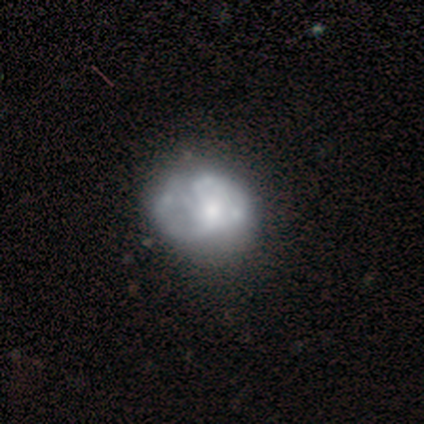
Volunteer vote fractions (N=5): This appears to be a featured or disk galaxy (60%) with no bar (100%), no spiral arms (67%) and a small central bulge (67%). Merging: none (100%).